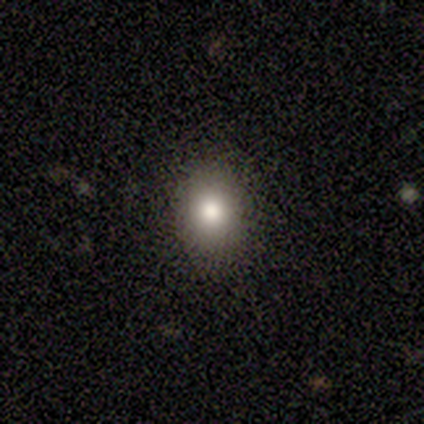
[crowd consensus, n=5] smooth-or-featured: smooth: 100% | featured or disk: 0% | star or artifact: 0%
  how-rounded: round: 80% | in between: 20% | cigar-shaped: 0%
  merging: none: 100% | minor disturbance: 0% | major disturbance: 0% | merger: 0%